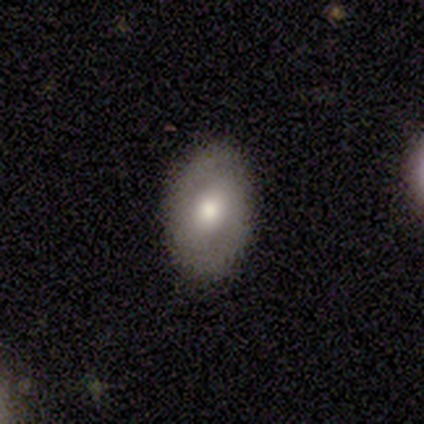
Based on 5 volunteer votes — This appears to be a smooth galaxy with no disk features (100%) that is in between round and cigar-shaped (80%). Merging: none (80%).